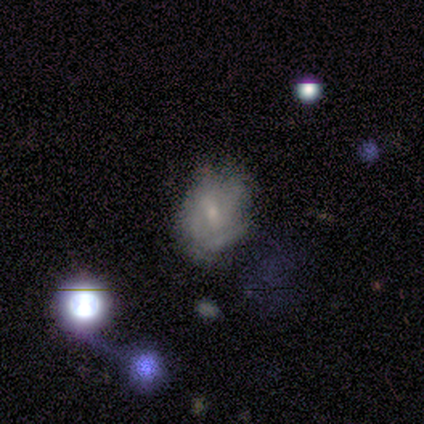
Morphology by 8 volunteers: Smooth or featured: featured or disk — 75% (smooth — 12%)
Edge-on disk: no — 83% (yes — 17%)
Bar: weak — 60% (no — 40%)
Spiral arms: yes — 100%
Spiral winding: medium — 40% (tied with loose — 40%)
Spiral arm count: can't tell — 60% (2 — 20%)
Bulge size: small — 80% (moderate — 20%)
Merging: none — 43% (minor disturbance — 29%)